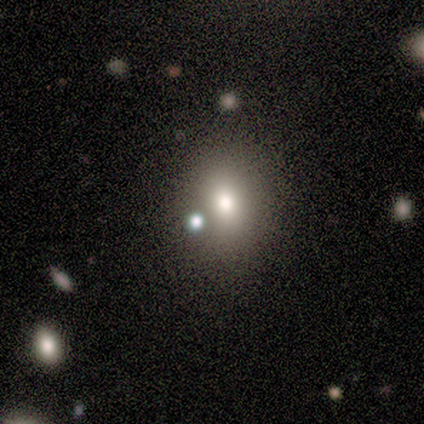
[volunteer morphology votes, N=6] type=smooth (83%); roundness=in between (100%); merging=none (83%).